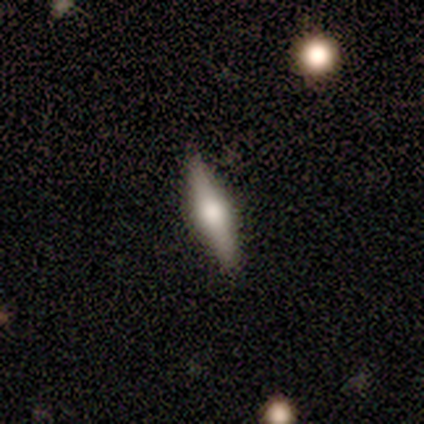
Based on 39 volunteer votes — This appears to be a featured or disk galaxy (72%) viewed edge-on (100%) with a rounded central bulge (96%). Merging: none (97%).